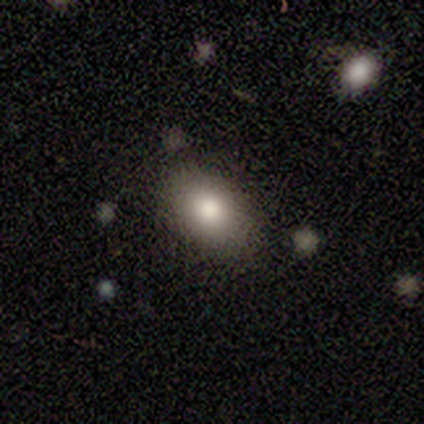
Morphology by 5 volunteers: Smooth or featured? 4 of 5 (80%) said smooth. How rounded? 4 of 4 (100%) said in between. Merging? 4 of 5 (80%) said none.